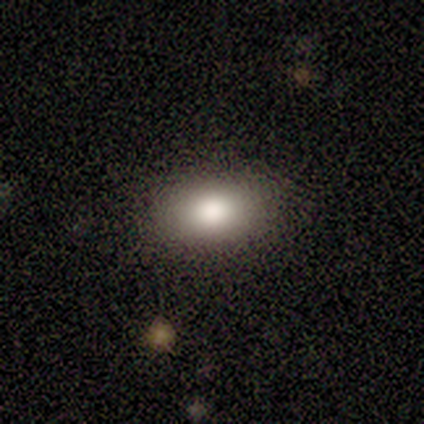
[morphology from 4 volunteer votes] smooth 75%, star or artifact 25%, featured or disk 0%. Down the decision tree: how rounded — in between (67%); merging — none (100%).